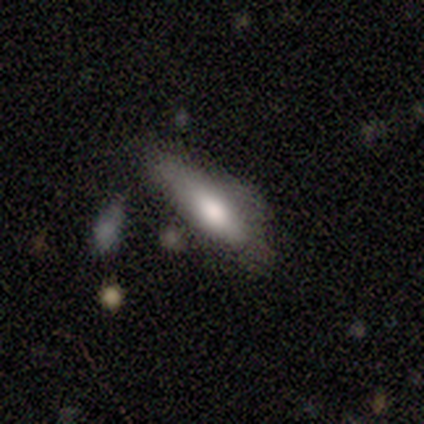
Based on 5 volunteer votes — Smooth or featured: smooth — 80% (featured or disk — 20%)
How rounded: in between — 75% (cigar-shaped — 25%)
Merging: none — 40% (tied with minor disturbance — 40%)